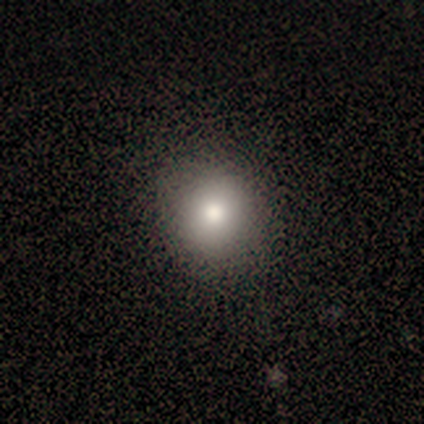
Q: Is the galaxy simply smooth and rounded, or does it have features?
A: smooth — 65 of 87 (75%).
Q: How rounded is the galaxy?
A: round — 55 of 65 (85%).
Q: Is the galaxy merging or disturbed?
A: none — 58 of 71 (82%).